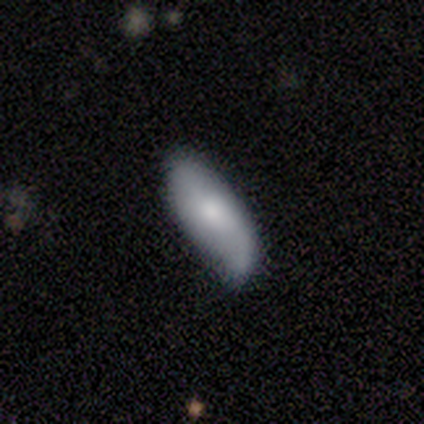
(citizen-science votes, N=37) Smooth or featured? 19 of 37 (51%) said smooth. How rounded? 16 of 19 (84%) said in between. Merging? 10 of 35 (29%) said none.